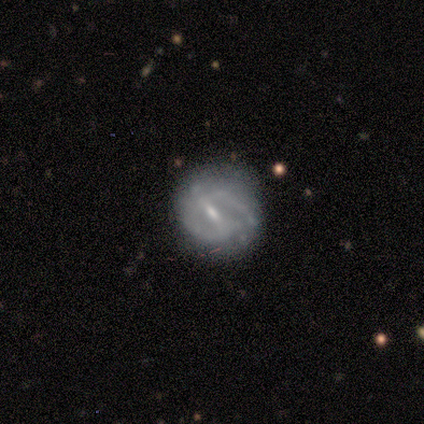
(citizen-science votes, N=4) A featured or disk galaxy (75%) with a strong bar (33%, tied with weak and no), no spiral arms (67%) and a moderate central bulge (33%, tied with small and none). Merging: none (67%).